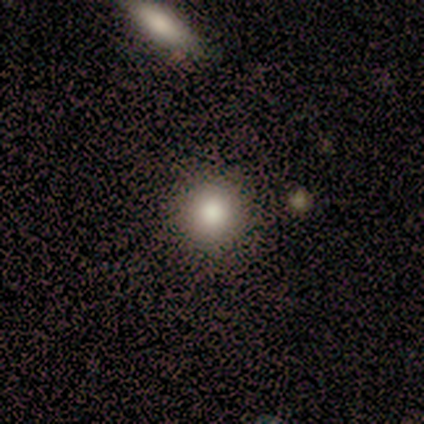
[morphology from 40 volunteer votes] Smooth or featured?
  - smooth: 68% *
  - star or artifact: 25%
  - featured or disk: 8%
How rounded?
  - round: 85% *
  - in between: 15%
  - cigar-shaped: 0%
Merging?
  - none: 53% *
  - major disturbance: 10%
  - merger: 7%
  - minor disturbance: 3%